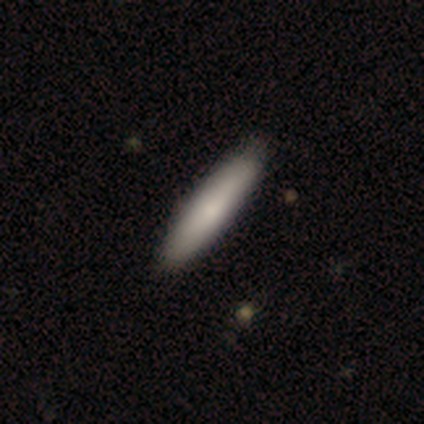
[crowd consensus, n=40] Q: Smooth or featured?
A: smooth (78%); runner-up: featured or disk (22%)
Q: How rounded?
A: cigar-shaped (84%); runner-up: in between (10%)
Q: Merging?
A: none (57%); runner-up: minor disturbance (5%)